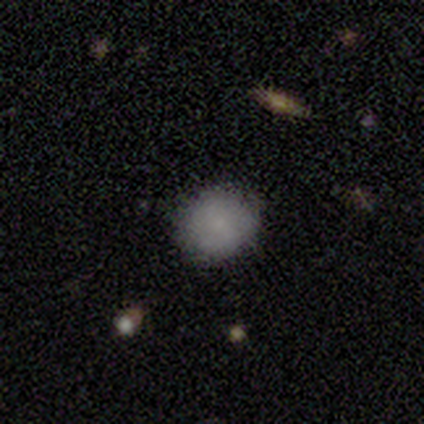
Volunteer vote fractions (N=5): This appears to be a smooth galaxy with no disk features (80%) that is in between round and cigar-shaped (75%). Merging: none (80%).